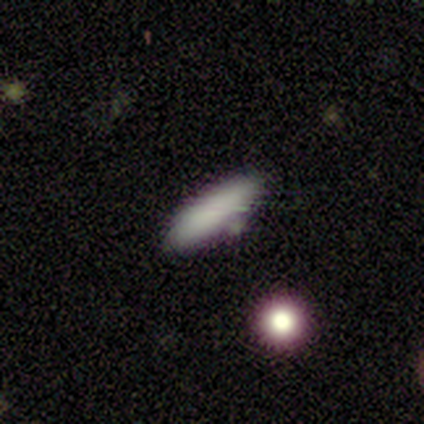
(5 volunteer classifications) This appears to be a smooth galaxy with no disk features (80%) that is cigar-shaped (100%). Merging: none (100%).